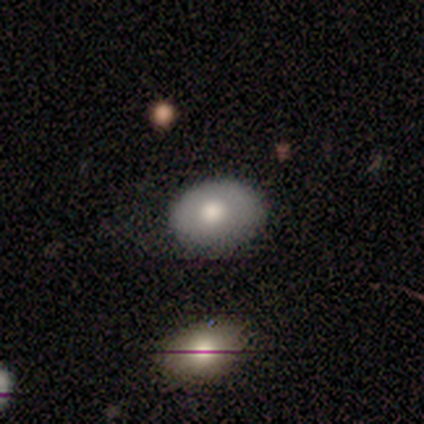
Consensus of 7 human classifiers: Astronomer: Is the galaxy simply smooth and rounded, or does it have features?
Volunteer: featured or disk — 71%.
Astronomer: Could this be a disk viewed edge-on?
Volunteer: no — 100%.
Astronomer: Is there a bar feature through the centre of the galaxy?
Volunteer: no — 100%.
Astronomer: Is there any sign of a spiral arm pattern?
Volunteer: no — 100%.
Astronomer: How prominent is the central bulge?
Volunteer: moderate — 60% (runner-up: large, 40%).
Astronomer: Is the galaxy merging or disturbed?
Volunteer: none — 86%.